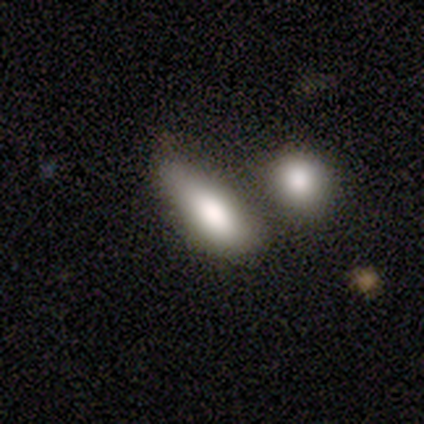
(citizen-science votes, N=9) Q: Smooth or featured?
A: smooth (78%); runner-up: featured or disk (11%)
Q: How rounded?
A: in between (100%)
Q: Merging?
A: minor disturbance (38%); tied with: merger (38%)